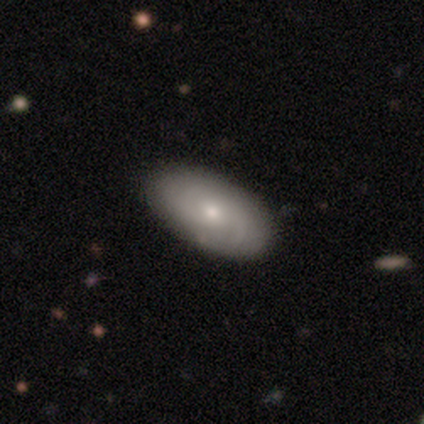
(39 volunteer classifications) Overall: featured or disk (54%; smooth 46%). Edge-on disk: no (100%). Bar: no (76%). Spiral arms: yes (76%). Spiral arm count: 2 (44%, tied with can't tell). Spiral winding: medium (50%; tight 44%). Bulge size: small (52%; moderate 48%). Merging: none (51%).